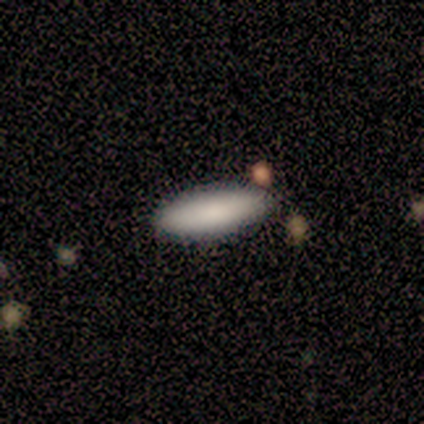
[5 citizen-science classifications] smooth-or-featured: smooth: 100% | featured or disk: 0% | star or artifact: 0%
  how-rounded: in between: 80% | cigar-shaped: 20% | round: 0%
  merging: none: 80% | minor disturbance: 20% | major disturbance: 0% | merger: 0%